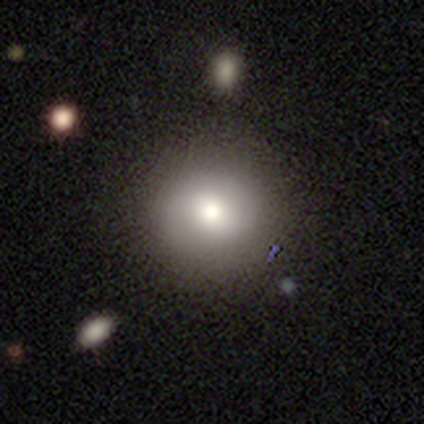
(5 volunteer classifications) Smooth or featured?
  - smooth: 60% *
  - featured or disk: 20%
  - star or artifact: 20%
How rounded?
  - round: 67% *
  - in between: 33%
  - cigar-shaped: 0%
Merging?
  - none: 75% *
  - minor disturbance: 25%
  - major disturbance: 0%
  - merger: 0%